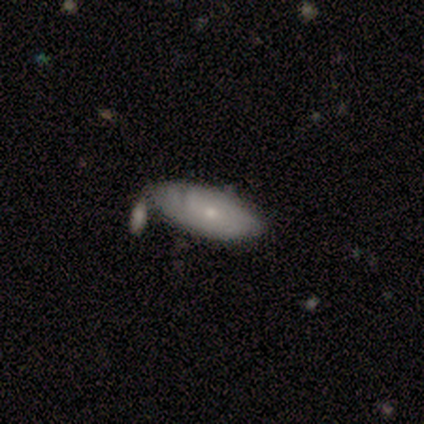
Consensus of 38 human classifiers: Smooth or featured? featured or disk (53%)
Edge-on disk? no (100%)
Bar? no (85%)
Spiral arms? yes (55%)
Spiral winding? tight (82%)
Spiral arm count? can't tell (73%)
Bulge size? small (80%)
Merging? none (50%)